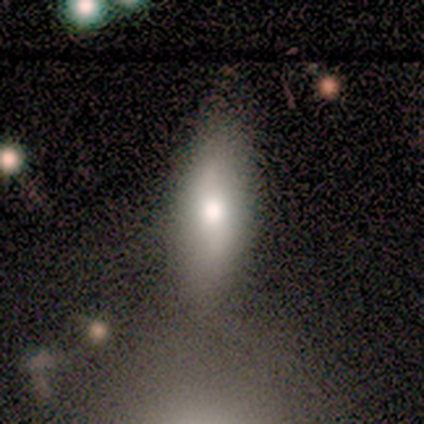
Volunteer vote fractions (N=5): smooth-or-featured: smooth: 60% | featured or disk: 40% | star or artifact: 0%
  how-rounded: in between: 67% | cigar-shaped: 33% | round: 0%
  merging: none: 60% | minor disturbance: 20% | merger: 20% | major disturbance: 0%